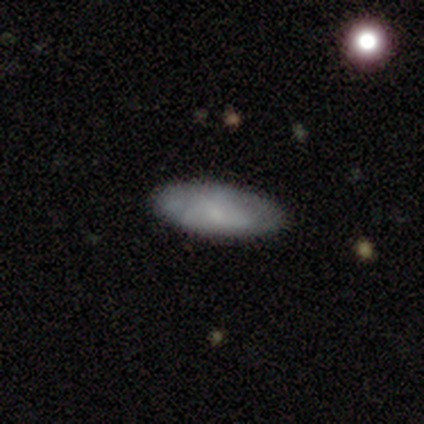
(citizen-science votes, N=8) Volunteers were most divided on "smooth or featured": smooth: 88%, featured or disk: 12%, star or artifact: 0%. More confident: how rounded — in between (100%); merging — none (100%).